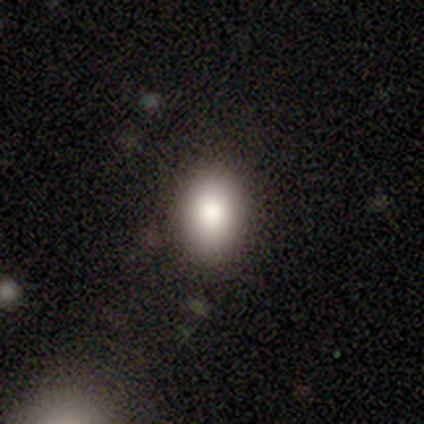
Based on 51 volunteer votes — Morphology: type=smooth (90%); roundness=in between (76%); merging=none (83%).